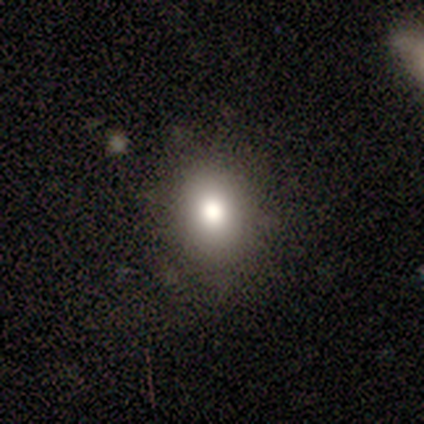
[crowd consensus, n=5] Smooth or featured? smooth (80%)
How rounded? in between (50%)
Merging? none (75%)